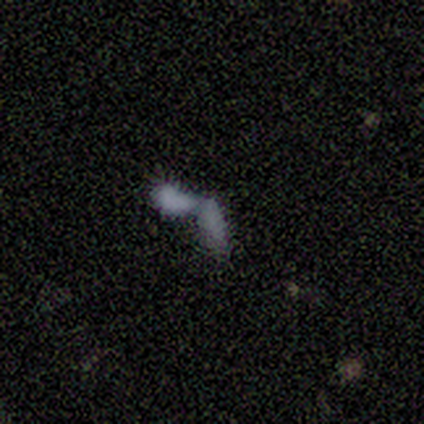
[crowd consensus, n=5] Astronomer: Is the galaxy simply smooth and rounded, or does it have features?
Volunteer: smooth — 60%.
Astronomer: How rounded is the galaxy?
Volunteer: in between — 67%.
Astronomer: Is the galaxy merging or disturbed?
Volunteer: merger — 100%.